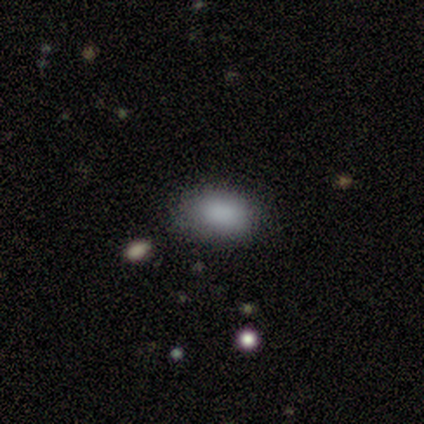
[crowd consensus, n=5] Smooth or featured? 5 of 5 (100%) said smooth. How rounded? 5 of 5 (100%) said in between. Merging? 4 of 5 (80%) said none.